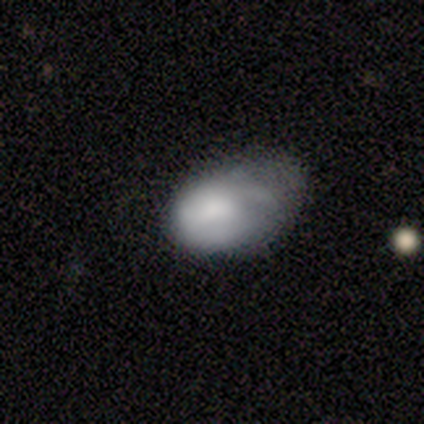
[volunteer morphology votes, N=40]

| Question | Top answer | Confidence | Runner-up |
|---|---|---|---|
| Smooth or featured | smooth | 57% | featured or disk (40%) |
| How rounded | in between | 91% | round (9%) |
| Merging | minor disturbance | 31% | tied: major disturbance (31%) |